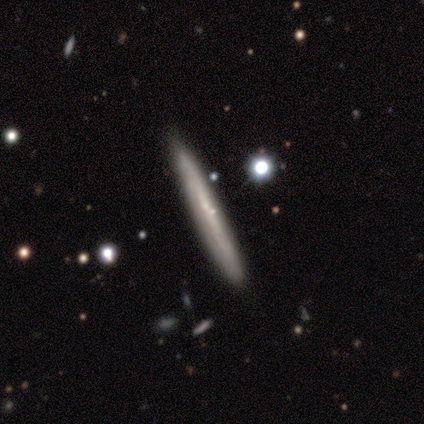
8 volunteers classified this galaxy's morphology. smooth-or-featured: smooth: 50% (tied) | featured or disk: 50% (tied) | star or artifact: 0%
  how-rounded: cigar-shaped: 100% | round: 0% | in between: 0%
  merging: none: 75% | minor disturbance: 25% | major disturbance: 0% | merger: 0%